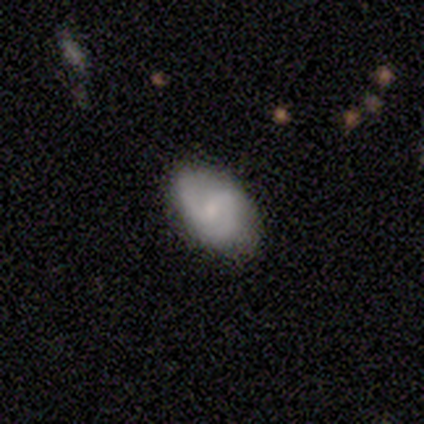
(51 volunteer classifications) A featured or disk galaxy (55%) with a weak bar (46%), 2 (81%) medium (48%) spiral arms (96%) and a small central bulge (54%).

Vote fractions:
- Smooth or featured? featured or disk: 55% / smooth: 39% / star or artifact: 6%
- Edge-on disk? no: 100% / yes: 0%
- Bar? weak: 46% / no: 39% / strong: 14%
- Spiral arms? yes: 96% / no: 4%
- Spiral winding? medium: 48% / tight: 33% / loose: 19%
- Spiral arm count? 2: 81% / 3: 11% / can't tell: 7% / 1: 0% / 4: 0% / more than 4: 0%
- Bulge size? small: 54% / moderate: 36% / none: 11% / dominant: 0% / large: 0%
- Merging? none: 75% / minor disturbance: 21% / major disturbance: 4% / merger: 0%